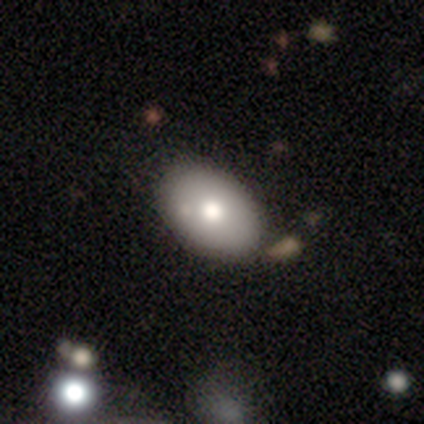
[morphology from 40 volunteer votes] smooth_or_featured: smooth (p=0.78) [alt: star or artifact p=0.12]
how_rounded: in between (p=0.77) [alt: round p=0.23]
merging: none (p=0.51) [alt: merger p=0.17]